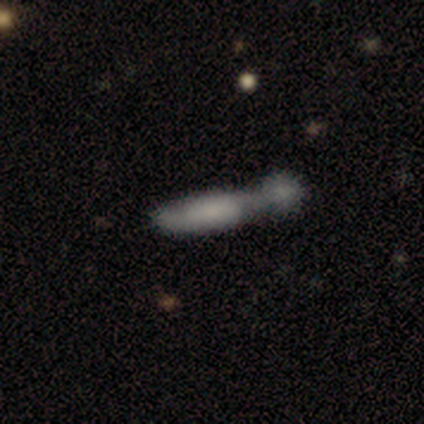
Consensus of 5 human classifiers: Q: Smooth or featured?
A: smooth (100%)
Q: How rounded?
A: cigar-shaped (60%); runner-up: in between (40%)
Q: Merging?
A: merger (60%); runner-up: minor disturbance (20%)